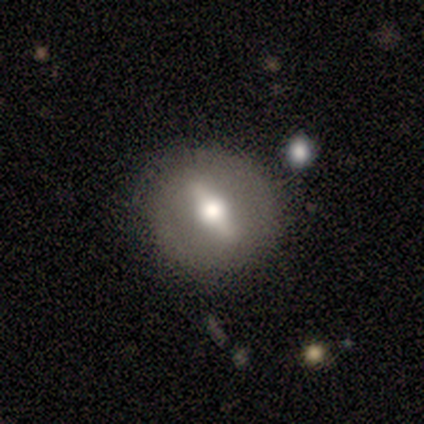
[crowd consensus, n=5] This appears to be a featured or disk galaxy (80%) viewed edge-on (50%, tied with no) with a rounded central bulge (100%). Merging: none (80%).